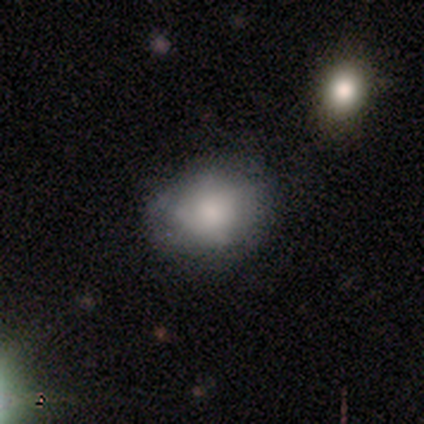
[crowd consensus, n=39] Volunteers were most divided on "merging": none: 47%, minor disturbance: 18%, merger: 5%, major disturbance: 3%. More confident: how rounded — round (73%); smooth or featured — smooth (67%).